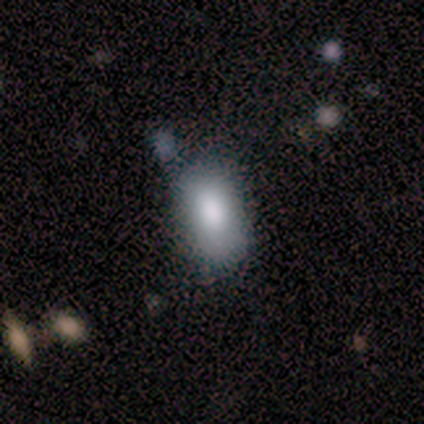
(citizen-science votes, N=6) Overall: smooth (100%). How rounded: in between (83%). Merging: none (67%; minor disturbance 33%).